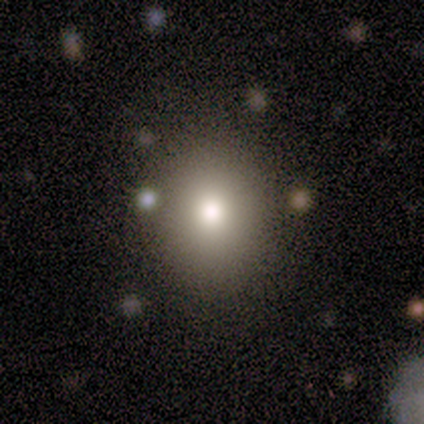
A smooth galaxy with no disk features (67%) that is round (75%).

Vote fractions:
- Smooth or featured? smooth: 67% / star or artifact: 33% / featured or disk: 0%
- How rounded? round: 75% / in between: 25% / cigar-shaped: 0%
- Merging? none: 100% / minor disturbance: 0% / major disturbance: 0% / merger: 0%